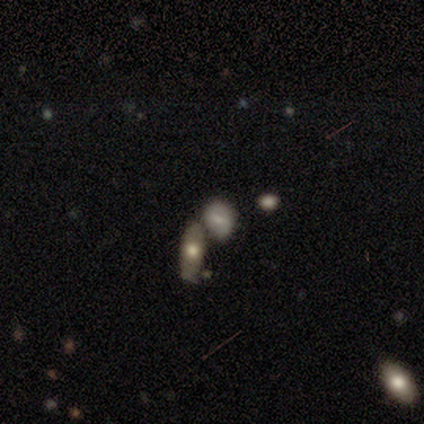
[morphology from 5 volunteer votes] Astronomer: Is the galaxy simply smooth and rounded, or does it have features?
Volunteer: smooth — 60% (runner-up: featured or disk, 40%).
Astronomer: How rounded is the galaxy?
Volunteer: in between — 67%.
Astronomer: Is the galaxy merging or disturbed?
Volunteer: merger — 80%.